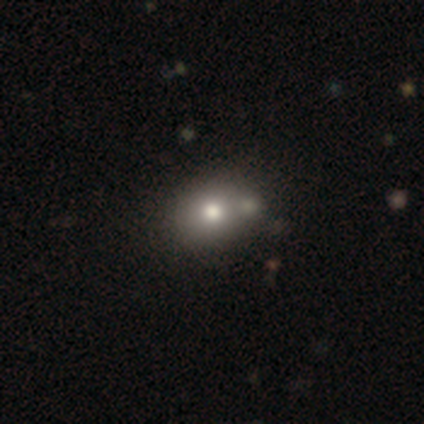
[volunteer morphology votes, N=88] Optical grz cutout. It shows a smooth galaxy with no disk features (64%) that is in between round and cigar-shaped (57%). Merging: none (77%).